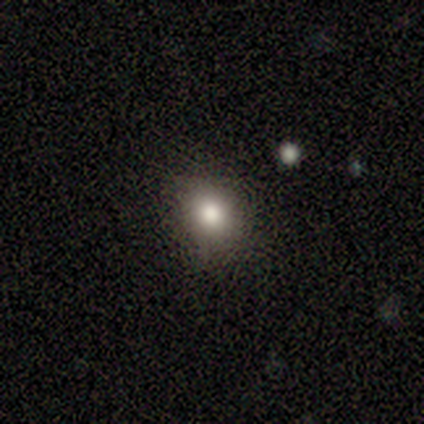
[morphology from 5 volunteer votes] Overall: smooth (80%). How rounded: round (75%). Merging: none (80%).